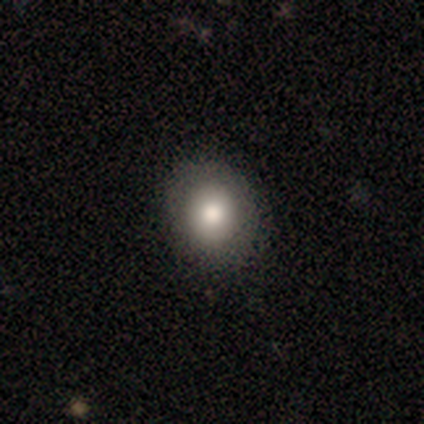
Smooth or featured? 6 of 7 (86%) said smooth. How rounded? 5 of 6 (83%) said round. Merging? 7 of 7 (100%) said none.